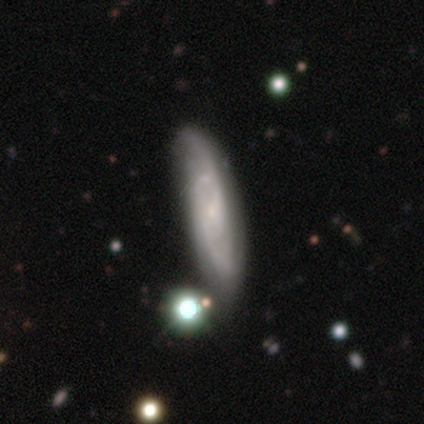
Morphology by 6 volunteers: Smooth or featured?
  - featured or disk: 83% *
  - smooth: 17%
  - star or artifact: 0%
Edge-on disk?
  - no: 100% *
  - yes: 0%
Bar?
  - no: 60% *
  - weak: 40%
  - strong: 0%
Spiral arms?
  - yes: 100% *
  - no: 0%
Spiral winding?
  - tight: 60% *
  - medium: 20%
  - loose: 20%
Spiral arm count?
  - 2: 80% *
  - 3: 20%
  - 1: 0%
  - 4: 0%
  - more than 4: 0%
  - can't tell: 0%
Bulge size?
  - small: 60% *
  - moderate: 20%
  - none: 20%
  - dominant: 0%
  - large: 0%
Merging?
  - none: 67% *
  - minor disturbance: 33%
  - major disturbance: 0%
  - merger: 0%